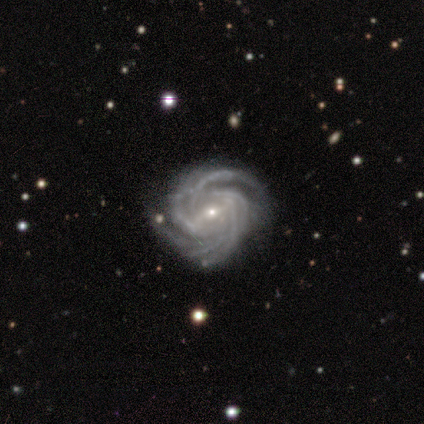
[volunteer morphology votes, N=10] Q: Smooth or featured?
A: featured or disk (100%)
Q: Edge-on disk?
A: no (100%)
Q: Bar?
A: strong (40%); tied with: weak (40%)
Q: Spiral arms?
A: yes (100%)
Q: Spiral winding?
A: tight (60%); runner-up: medium (40%)
Q: Spiral arm count?
A: more than 4 (60%); runner-up: 4 (20%)
Q: Bulge size?
A: small (80%); runner-up: moderate (20%)
Q: Merging?
A: none (70%); runner-up: minor disturbance (30%)